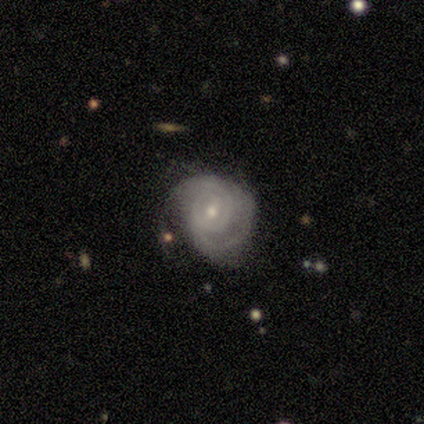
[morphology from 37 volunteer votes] smooth-or-featured: featured or disk: 84% | smooth: 11% | star or artifact: 5%
  disk-edge-on: no: 97% | yes: 3%
    bar: no: 50% | weak: 40% | strong: 10%
    has-spiral-arms: yes: 83% | no: 17%
      spiral-winding: tight: 48% | medium: 44% | loose: 8%
      spiral-arm-count: 2: 68% | can't tell: 20% | 3: 8% | 1: 4% | 4: 0% | more than 4: 0%
    bulge-size: small: 70% | moderate: 30% | dominant: 0% | large: 0% | none: 0%
  merging: none: 60% | minor disturbance: 23% | major disturbance: 17% | merger: 0%